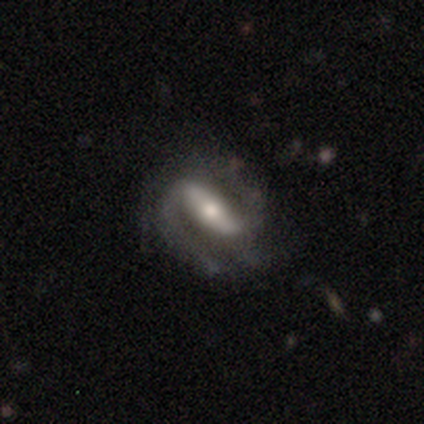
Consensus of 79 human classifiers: Smooth or featured? 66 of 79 (84%) said featured or disk. Edge-on disk? 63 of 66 (95%) said no. Bar? 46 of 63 (73%) said strong. Spiral arms? 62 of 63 (98%) said yes. Spiral winding? 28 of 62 (45%) said medium. Spiral arm count? 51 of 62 (82%) said 2. Bulge size? 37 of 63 (59%) said moderate. Merging? 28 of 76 (37%) said none.